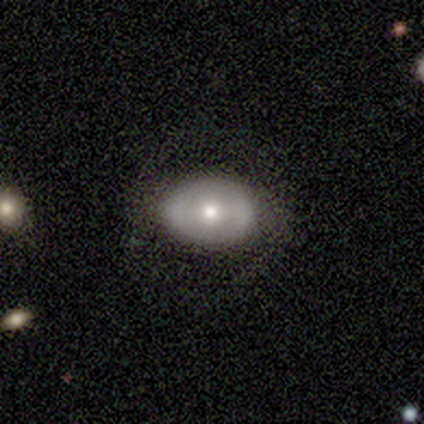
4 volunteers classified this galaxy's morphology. Smooth or featured: smooth — 50% (tied with featured or disk — 50%)
How rounded: round — 50% (tied with in between — 50%)
Merging: none — 75% (minor disturbance — 25%)